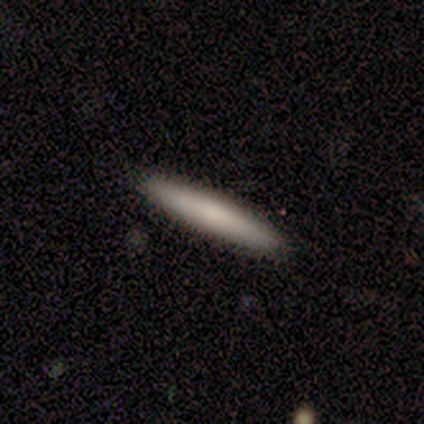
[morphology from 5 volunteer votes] Smooth or featured?
  - smooth: 60% *
  - featured or disk: 40%
  - star or artifact: 0%
How rounded?
  - cigar-shaped: 100% *
  - round: 0%
  - in between: 0%
Merging?
  - none: 80% *
  - minor disturbance: 20%
  - major disturbance: 0%
  - merger: 0%